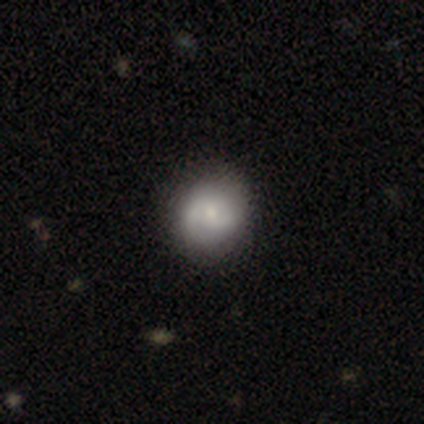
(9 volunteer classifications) This is possibly a smooth galaxy (56%). How rounded: clearly round (100%). Merging: clearly none (100%).